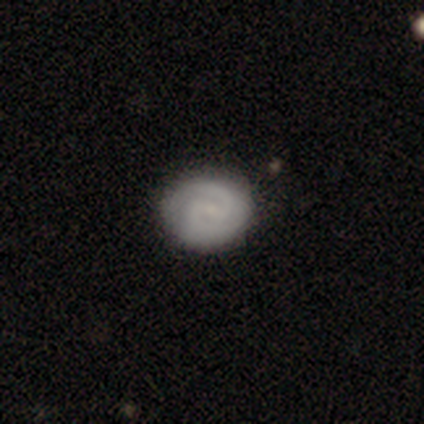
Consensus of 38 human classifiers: smooth_or_featured: featured or disk (p=0.71) [alt: smooth p=0.26]
disk_edge_on: no (p=0.96) [alt: yes p=0.04]
bar: weak (p=0.65) [alt: no p=0.35]
has_spiral_arms: yes (p=0.96) [alt: no p=0.04]
spiral_winding: tight (p=0.40) [tied with: medium p=0.40]
spiral_arm_count: 2 (p=0.92) [alt: 3 p=0.04]
bulge_size: small (p=0.58) [alt: none p=0.38]
merging: none (p=0.92) [alt: major disturbance p=0.05]